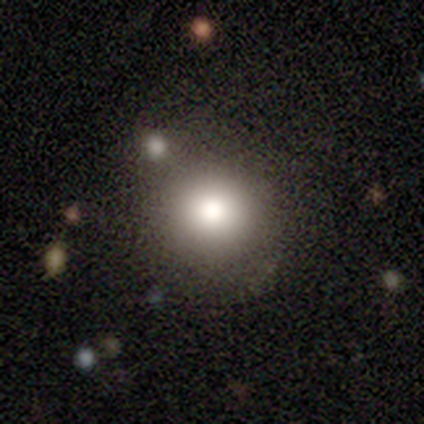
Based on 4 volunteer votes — smooth 75%, star or artifact 25%, featured or disk 0%. Down the decision tree: how rounded — round (100%); merging — none (100%).